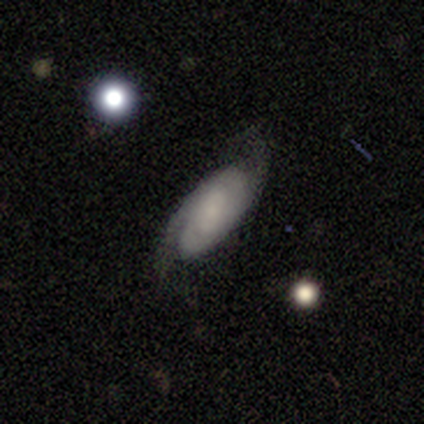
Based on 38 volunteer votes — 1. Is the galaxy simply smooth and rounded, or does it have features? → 71% featured or disk, 26% smooth, 3% star or artifact.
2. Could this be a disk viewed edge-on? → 96% no, 4% yes.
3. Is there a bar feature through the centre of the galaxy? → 58% no, 42% weak, 0% strong.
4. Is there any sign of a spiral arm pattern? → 96% yes, 4% no.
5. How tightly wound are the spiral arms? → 56% tight, 36% medium, 8% loose.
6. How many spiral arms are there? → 72% 2, 24% can't tell, 4% 4, 0% 1, 0% 3, 0% more than 4.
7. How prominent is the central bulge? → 50% none, 31% small, 12% moderate, 4% dominant, 4% large.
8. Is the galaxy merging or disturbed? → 78% none, 14% minor disturbance, 8% major disturbance, 0% merger.